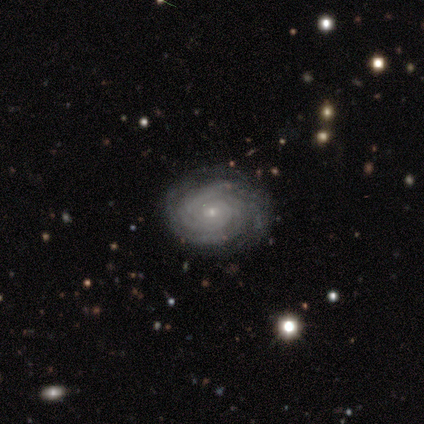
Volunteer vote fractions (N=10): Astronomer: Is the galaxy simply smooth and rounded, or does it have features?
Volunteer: featured or disk — 100%.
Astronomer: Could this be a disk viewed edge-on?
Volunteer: no — 100%.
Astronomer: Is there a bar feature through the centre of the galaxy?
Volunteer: no — 80%.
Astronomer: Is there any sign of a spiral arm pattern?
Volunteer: yes — 100%.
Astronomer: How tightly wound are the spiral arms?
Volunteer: tight — 100%.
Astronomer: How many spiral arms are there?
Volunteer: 4 — 30%, tied with can't tell at 30%.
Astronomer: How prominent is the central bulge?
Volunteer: small — 80%.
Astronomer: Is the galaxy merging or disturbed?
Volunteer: none — 80%.